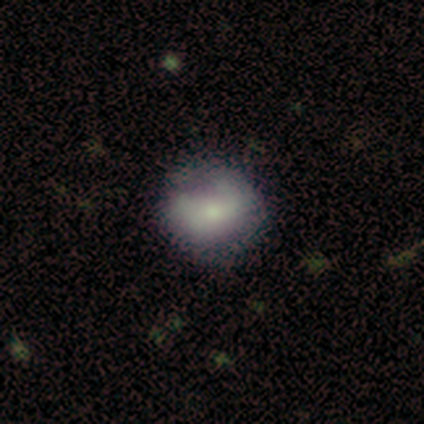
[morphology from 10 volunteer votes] Smooth or featured: smooth — 50% (featured or disk — 40%)
How rounded: in between — 60% (round — 40%)
Merging: none — 44% (tied with minor disturbance — 44%)